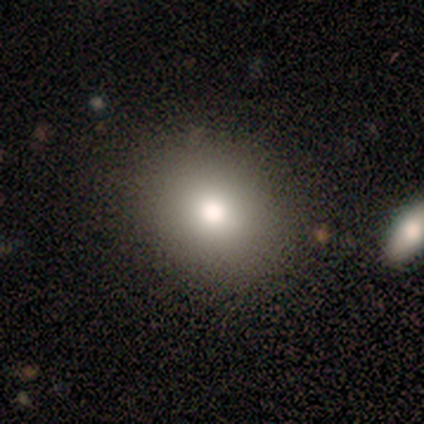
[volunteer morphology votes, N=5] Volunteers were most divided on "smooth or featured": smooth: 80%, star or artifact: 20%, featured or disk: 0%. More confident: how rounded — round (100%); merging — none (100%).